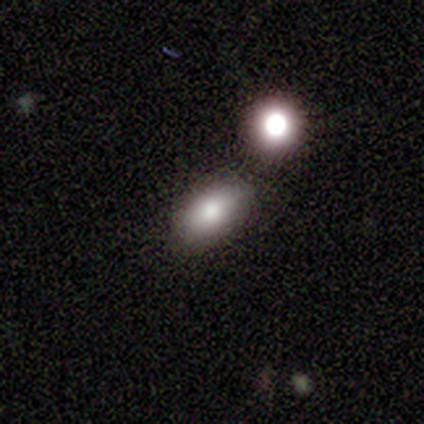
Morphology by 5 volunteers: Overall: smooth (100%). How rounded: in between (80%). Merging: none (80%).